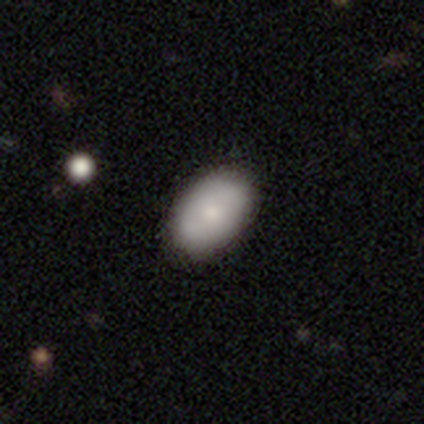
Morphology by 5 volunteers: Smooth or featured? 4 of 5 (80%) said smooth. How rounded? 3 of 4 (75%) said in between. Merging? 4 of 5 (80%) said none.